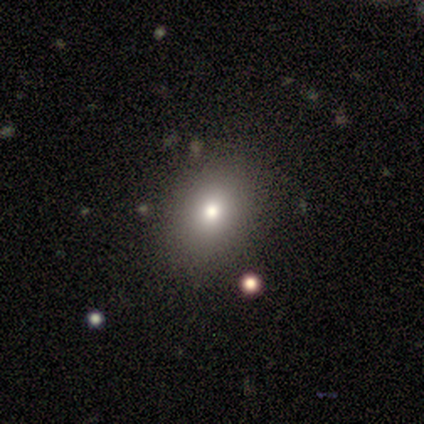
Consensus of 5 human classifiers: This is likely a smooth galaxy (60%). How rounded: likely round (67%). Merging: clearly none (100%).